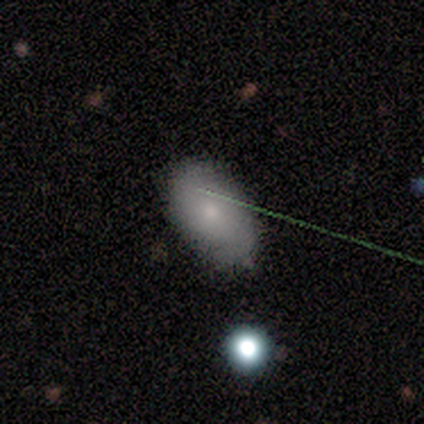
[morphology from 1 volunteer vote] Smooth or featured: smooth — 100%
How rounded: in between — 100%
Merging: none — 100%